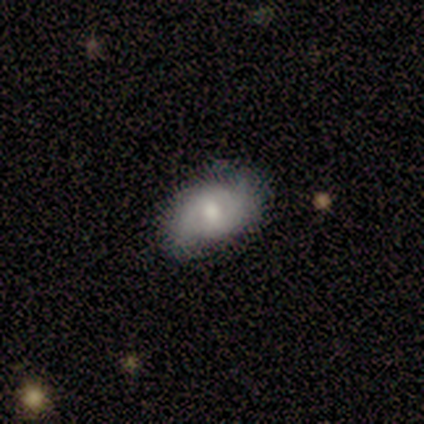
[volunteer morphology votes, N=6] Overall: smooth (67%; featured or disk 33%). How rounded: in between (75%). Merging: none (67%; minor disturbance 33%).